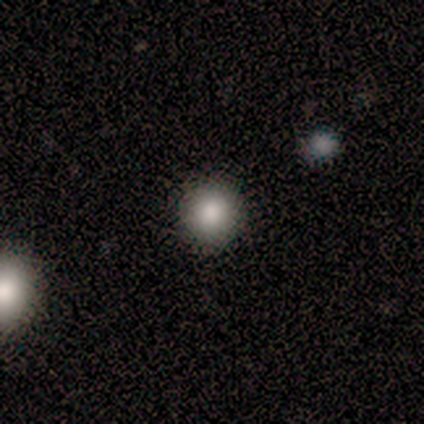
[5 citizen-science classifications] This appears to be a smooth galaxy with no disk features (60%) that is round (100%). Merging: none (100%).